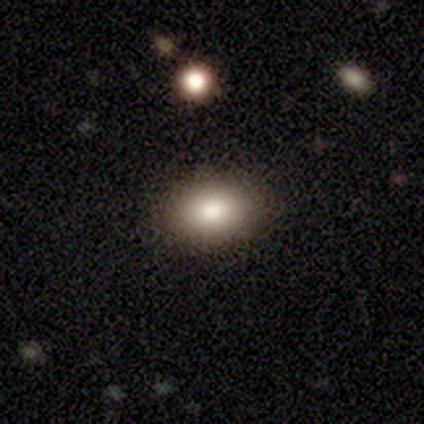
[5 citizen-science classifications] Morphology: type=smooth (40%, tied with star or artifact); roundness=in between (100%); merging=none (100%).